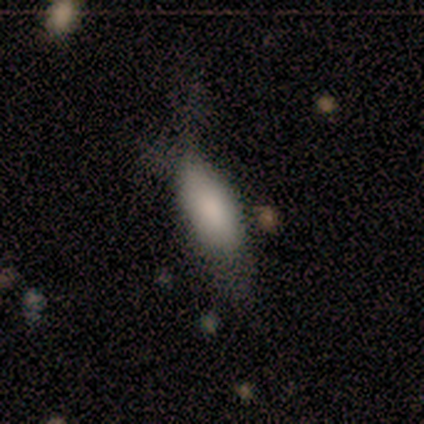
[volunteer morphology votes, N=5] This appears to be a smooth galaxy with no disk features (80%) that is in between round and cigar-shaped (75%). Merging: none (60%).